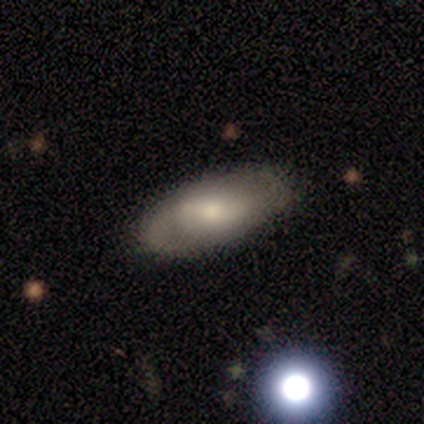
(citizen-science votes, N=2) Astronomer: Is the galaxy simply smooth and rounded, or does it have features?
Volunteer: smooth — 50%, tied with featured or disk at 50%.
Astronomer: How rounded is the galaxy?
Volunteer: in between — 100%.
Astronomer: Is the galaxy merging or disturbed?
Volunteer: none — 100%.